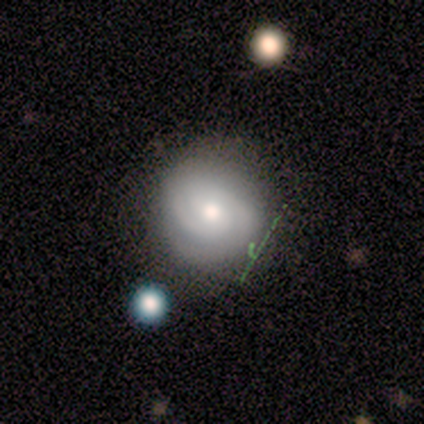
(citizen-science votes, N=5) Smooth or featured: smooth — 60% (featured or disk — 40%)
How rounded: round — 100%
Merging: none — 80% (minor disturbance — 20%)